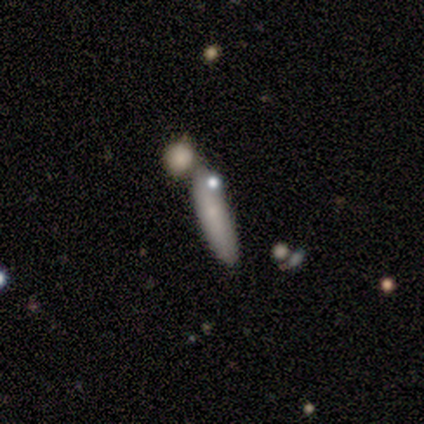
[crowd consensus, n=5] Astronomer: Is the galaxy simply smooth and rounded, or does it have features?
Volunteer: smooth — 100%.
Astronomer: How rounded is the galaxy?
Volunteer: cigar-shaped — 60%.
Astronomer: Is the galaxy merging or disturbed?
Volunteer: none — 60% (runner-up: minor disturbance, 40%).